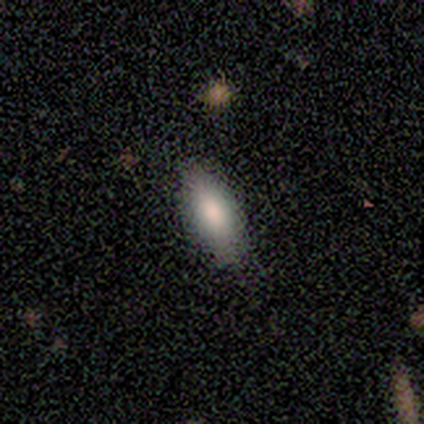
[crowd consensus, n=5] smooth_or_featured: smooth (p=0.80) [alt: featured or disk p=0.20]
how_rounded: in between (p=1.00)
merging: none (p=0.80) [alt: minor disturbance p=0.20]